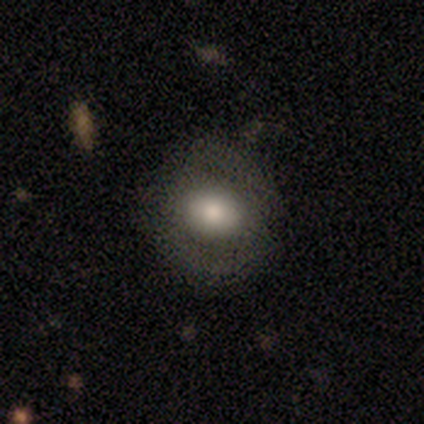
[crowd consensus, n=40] Q: Smooth or featured?
A: smooth (57%); runner-up: featured or disk (30%)
Q: How rounded?
A: in between (61%); runner-up: round (39%)
Q: Merging?
A: none (71%); runner-up: minor disturbance (23%)